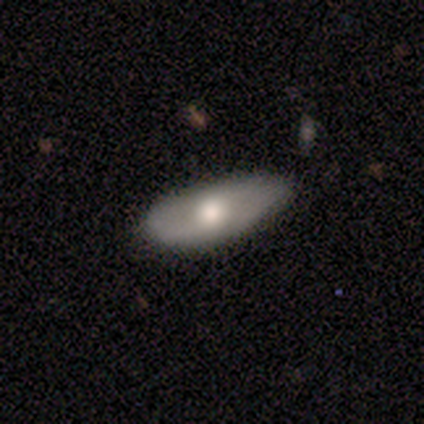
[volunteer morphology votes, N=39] Overall: smooth (59%; featured or disk 38%). How rounded: in between (91%). Merging: none (34%; minor disturbance 24%).